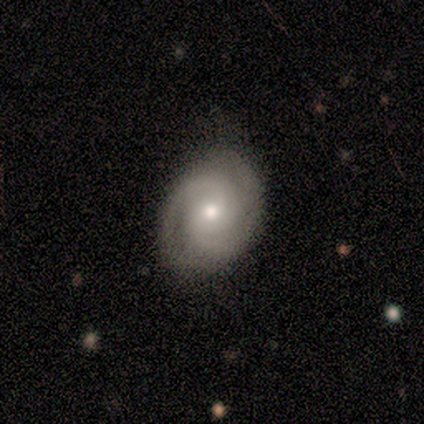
Smooth or featured: featured or disk — 80% (smooth — 20%)
Edge-on disk: no — 100%
Bar: no — 100%
Spiral arms: yes — 100%
Spiral winding: tight — 75% (medium — 25%)
Spiral arm count: 2 — 50% (3 — 25%)
Bulge size: moderate — 50% (tied with small — 50%)
Merging: none — 80% (minor disturbance — 20%)